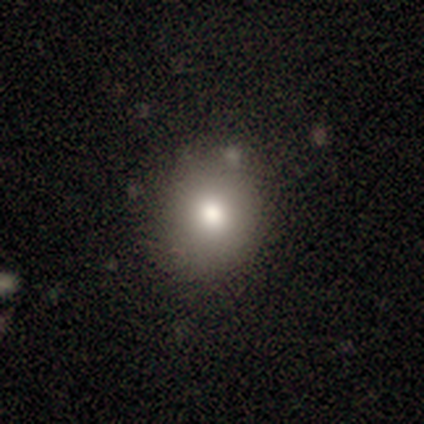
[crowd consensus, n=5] Smooth or featured? 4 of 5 (80%) said smooth. How rounded? 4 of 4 (100%) said round. Merging? 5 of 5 (100%) said none.